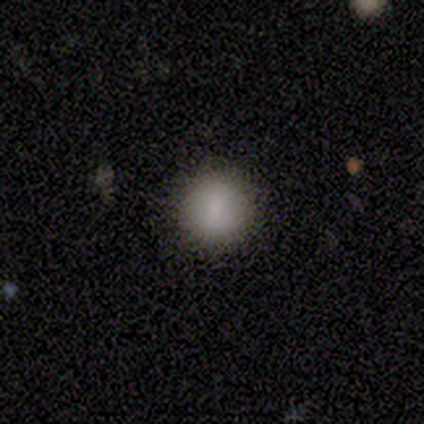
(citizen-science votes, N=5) This is clearly a smooth galaxy (100%). How rounded: clearly round (100%). Merging: clearly none (100%).